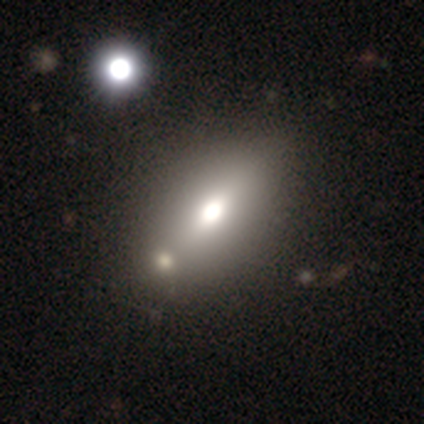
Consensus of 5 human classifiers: Morphology: type=featured or disk (60%); edge-on=yes (67%); edge-on bulge=rounded (100%); merging=none (60%).